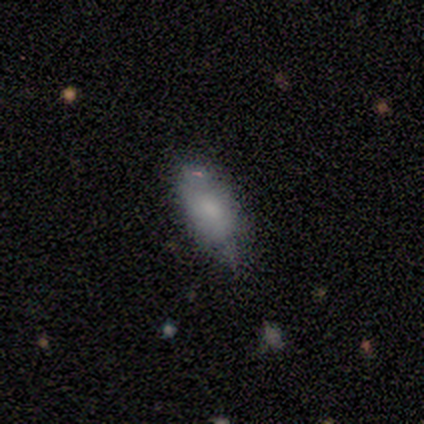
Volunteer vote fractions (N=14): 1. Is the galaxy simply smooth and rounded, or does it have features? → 79% smooth, 14% featured or disk, 7% star or artifact.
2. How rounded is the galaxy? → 82% in between, 18% cigar-shaped, 0% round.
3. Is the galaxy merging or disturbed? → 54% minor disturbance, 46% none, 0% major disturbance, 0% merger.